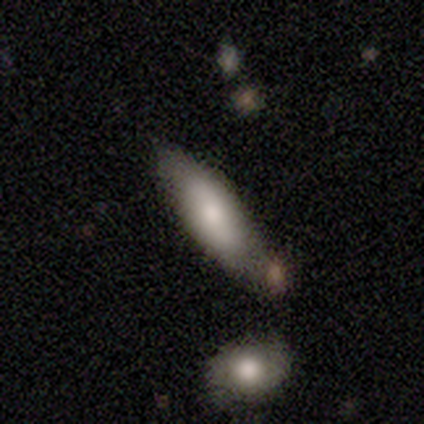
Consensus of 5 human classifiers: Volunteers were most divided on "how rounded": in between: 75%, cigar-shaped: 25%, round: 0%. More confident: smooth or featured — smooth (80%); merging — none (80%).